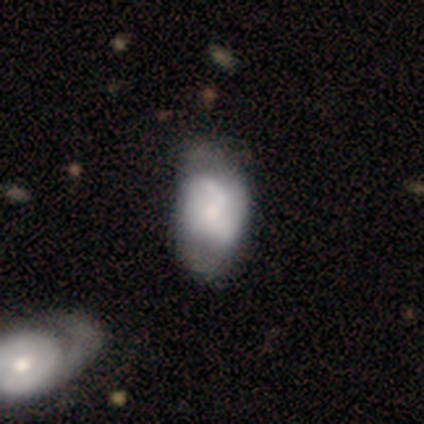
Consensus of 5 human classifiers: Smooth or featured? 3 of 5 (60%) said featured or disk. Edge-on disk? 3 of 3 (100%) said no. Bar? 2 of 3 (67%) said no. Spiral arms? 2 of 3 (67%) said no. Bulge size? 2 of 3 (67%) said small. Merging? 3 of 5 (60%) said none.